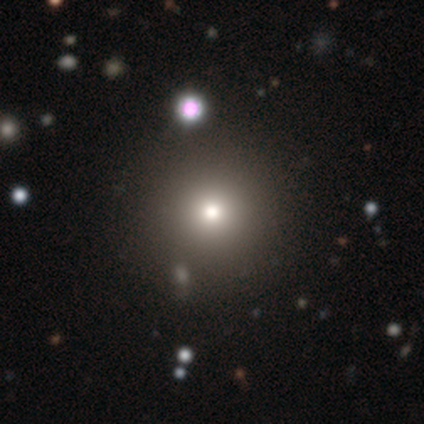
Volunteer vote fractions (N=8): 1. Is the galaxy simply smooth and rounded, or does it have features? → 62% smooth, 25% featured or disk, 12% star or artifact.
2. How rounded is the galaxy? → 100% round, 0% in between, 0% cigar-shaped.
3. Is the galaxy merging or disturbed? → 100% none, 0% minor disturbance, 0% major disturbance, 0% merger.